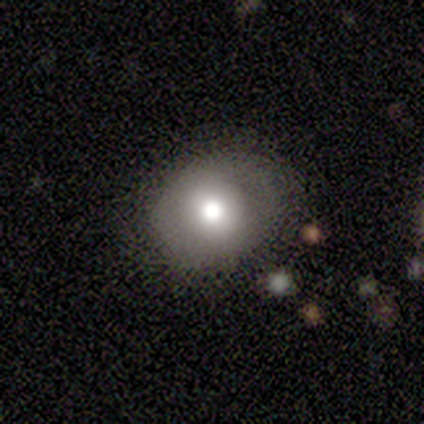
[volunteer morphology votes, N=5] Q: Smooth or featured?
A: smooth (60%); runner-up: featured or disk (20%)
Q: How rounded?
A: round (100%)
Q: Merging?
A: none (75%); runner-up: minor disturbance (25%)